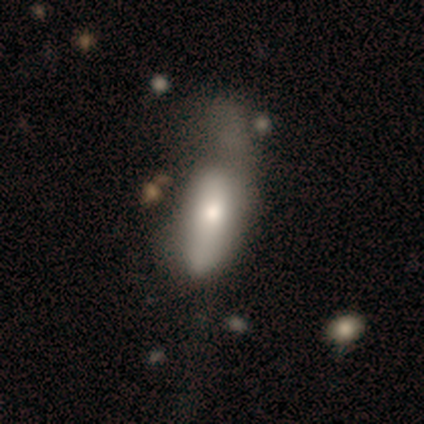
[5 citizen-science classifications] Smooth or featured: smooth — 100%
How rounded: in between — 100%
Merging: major disturbance — 100%